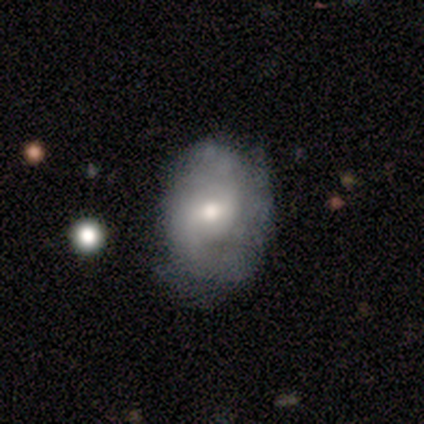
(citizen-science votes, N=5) This appears to be a featured or disk galaxy (60%) with a weak bar (67%), 2 (67%) tight (67%) spiral arms (100%) and a moderate central bulge (33%, tied with small and none). Merging: none (100%).